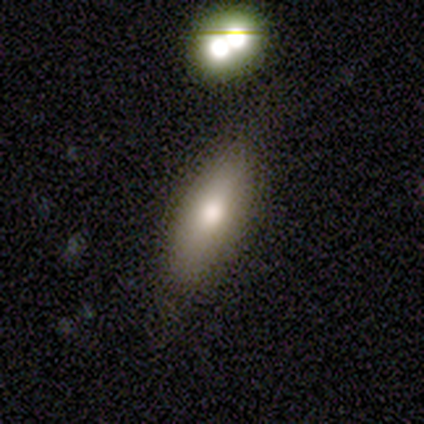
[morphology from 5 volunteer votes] smooth-or-featured: smooth: 60% | featured or disk: 20% | star or artifact: 20%
  how-rounded: in between: 67% | cigar-shaped: 33% | round: 0%
  merging: none: 100% | minor disturbance: 0% | major disturbance: 0% | merger: 0%